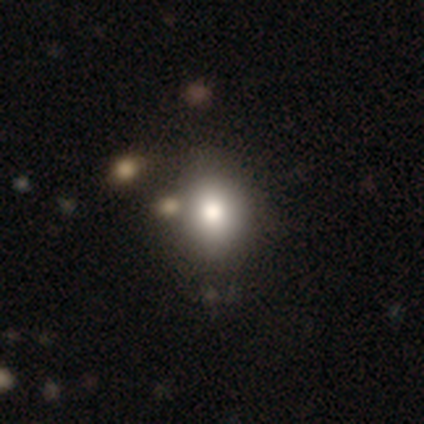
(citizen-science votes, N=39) Smooth or featured? 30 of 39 (77%) said smooth. How rounded? 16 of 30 (53%) said round. Merging? 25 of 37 (68%) said none.